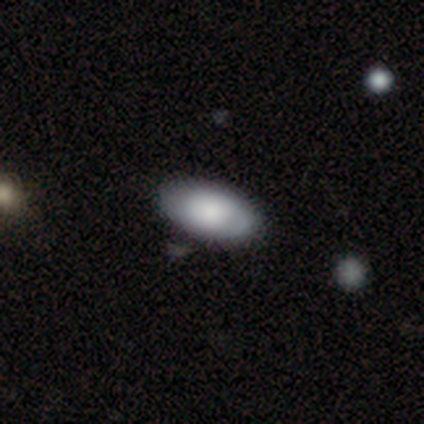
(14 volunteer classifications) This is likely a smooth galaxy (64%). How rounded: clearly in between (89%). Merging: clearly none (83%).